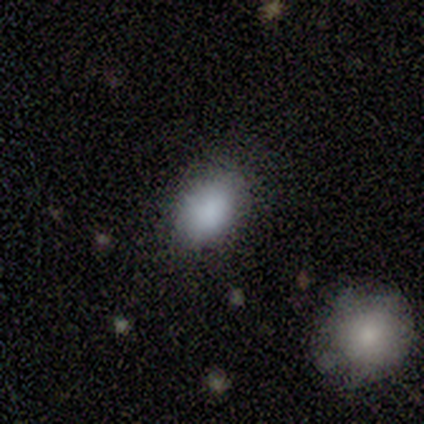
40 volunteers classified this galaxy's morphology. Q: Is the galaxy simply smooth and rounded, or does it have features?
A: smooth — 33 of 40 (82%).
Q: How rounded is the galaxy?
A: in between — 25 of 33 (76%).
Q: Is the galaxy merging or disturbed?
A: none — 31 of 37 (84%).